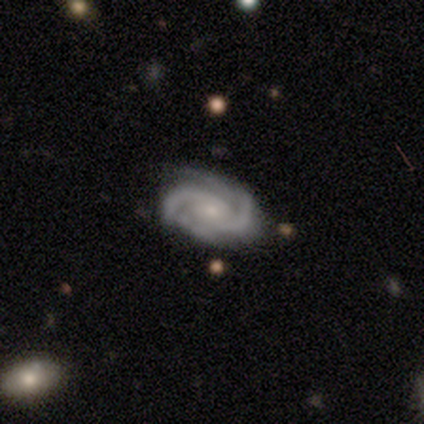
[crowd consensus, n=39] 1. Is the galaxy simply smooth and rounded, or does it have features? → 95% featured or disk, 3% smooth, 3% star or artifact.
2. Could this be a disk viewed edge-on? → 100% no, 0% yes.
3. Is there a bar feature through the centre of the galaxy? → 76% no, 19% weak, 5% strong.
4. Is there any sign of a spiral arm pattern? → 100% yes, 0% no.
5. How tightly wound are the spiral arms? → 49% tight, 41% medium, 11% loose.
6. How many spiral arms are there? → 73% 2, 16% 3, 5% can't tell, 3% 4, 3% more than 4, 0% 1.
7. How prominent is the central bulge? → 65% small, 24% moderate, 5% none, 3% dominant, 3% large.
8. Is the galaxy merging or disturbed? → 47% none, 21% minor disturbance, 3% major disturbance, 0% merger.